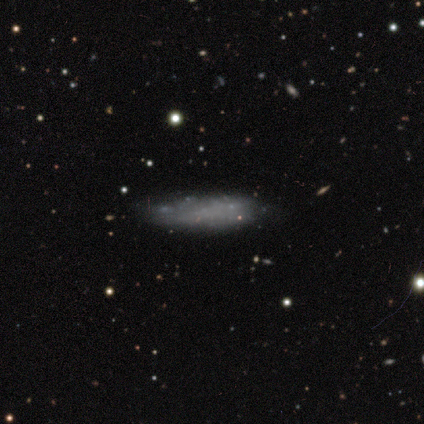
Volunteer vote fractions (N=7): smooth 71%, featured or disk 29%, star or artifact 0%. Down the decision tree: how rounded — cigar-shaped (80%); merging — none (43%, tied with minor disturbance).